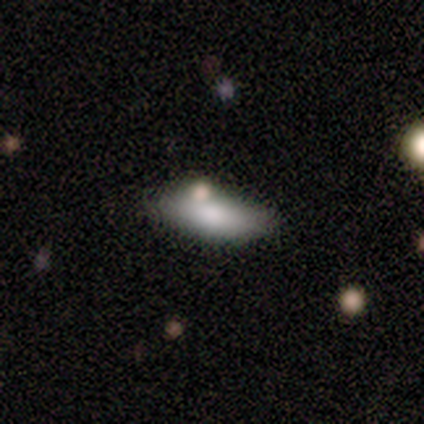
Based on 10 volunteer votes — A smooth galaxy with no disk features (70%) that is in between round and cigar-shaped (71%).

Vote fractions:
- Smooth or featured? smooth: 70% / featured or disk: 30% / star or artifact: 0%
- How rounded? in between: 71% / round: 14% / cigar-shaped: 14%
- Merging? none: 60% / minor disturbance: 30% / merger: 10% / major disturbance: 0%